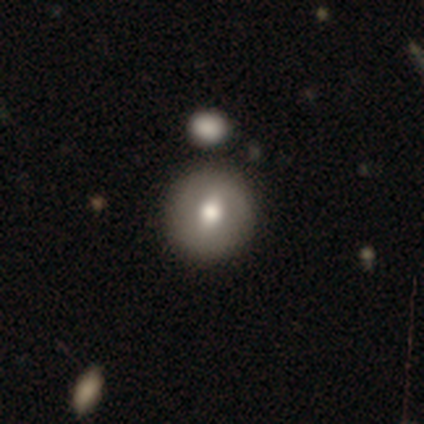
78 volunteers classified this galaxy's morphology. Smooth or featured? 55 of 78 (71%) said smooth. How rounded? 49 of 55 (89%) said round. Merging? 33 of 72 (46%) said none.